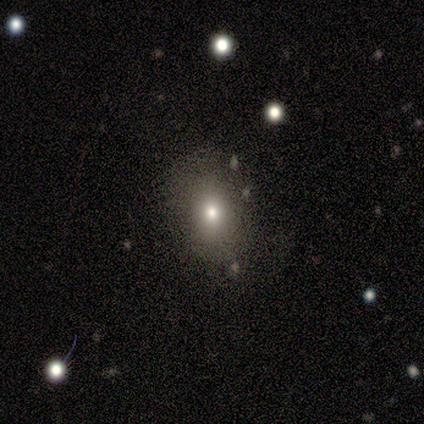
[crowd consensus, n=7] A smooth galaxy with no disk features (71%) that is in between round and cigar-shaped (80%). Merging: none (50%).